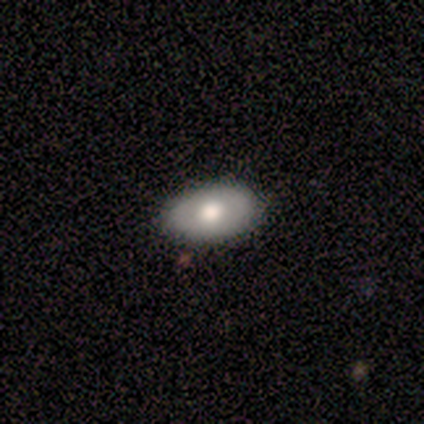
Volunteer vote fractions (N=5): Morphology: type=smooth (100%); roundness=in between (80%); merging=none (60%).